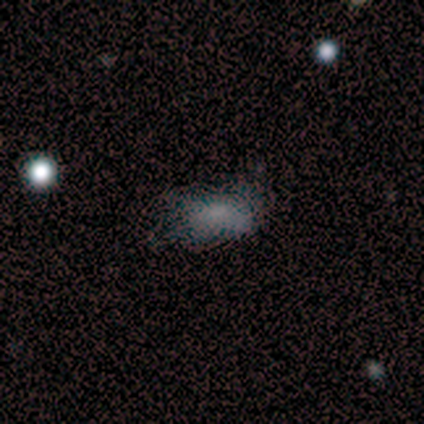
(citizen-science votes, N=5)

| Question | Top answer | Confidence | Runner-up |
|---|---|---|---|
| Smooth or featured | smooth | 40% | tied: featured or disk (40%) |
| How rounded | round | 50% | tied: in between (50%) |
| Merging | major disturbance | 75% | none (25%) |